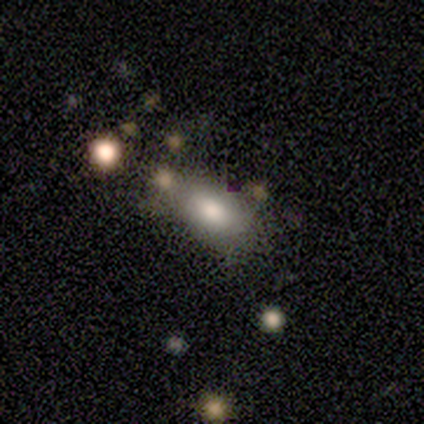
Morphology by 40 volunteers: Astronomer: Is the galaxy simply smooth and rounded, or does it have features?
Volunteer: smooth — 75%.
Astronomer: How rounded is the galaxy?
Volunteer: in between — 97%.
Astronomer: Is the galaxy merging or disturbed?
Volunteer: none — 57%.